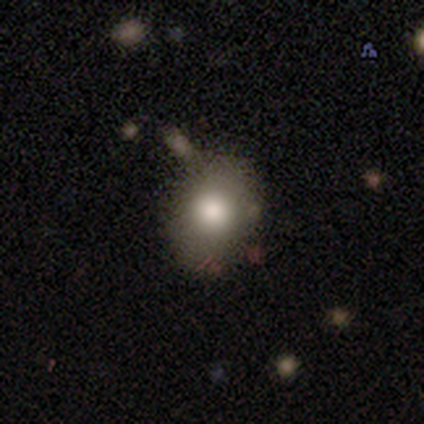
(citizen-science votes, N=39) Morphology: type=smooth (62%); roundness=round (58%); merging=none (69%).